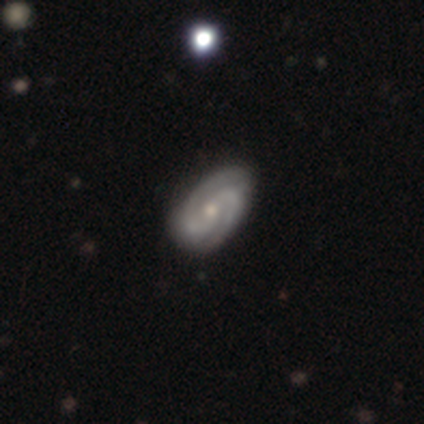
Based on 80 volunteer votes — A featured or disk galaxy (85%) with no bar (60%), 2 (84%) tight (54%) spiral arms (94%) and a small central bulge (49%).

Vote fractions:
- Smooth or featured? featured or disk: 85% / smooth: 11% / star or artifact: 4%
- Edge-on disk? no: 96% / yes: 4%
- Bar? no: 60% / weak: 32% / strong: 8%
- Spiral arms? yes: 94% / no: 6%
- Spiral winding? tight: 54% / medium: 39% / loose: 7%
- Spiral arm count? 2: 84% / 3: 8% / can't tell: 5% / 4: 3% / 1: 0% / more than 4: 0%
- Bulge size? small: 49% / moderate: 45% / none: 5% / large: 2% / dominant: 0%
- Merging? none: 40% / minor disturbance: 10% / major disturbance: 1% / merger: 0%